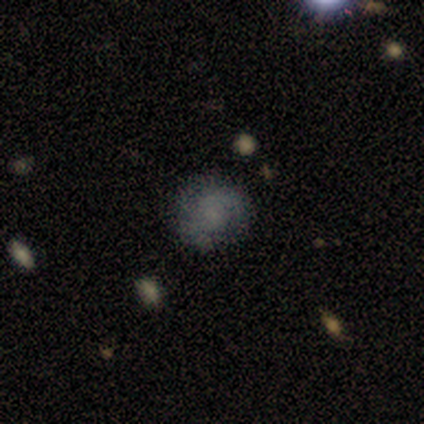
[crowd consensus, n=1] A smooth galaxy with no disk features (100%) that is round (100%). Merging: none (100%).